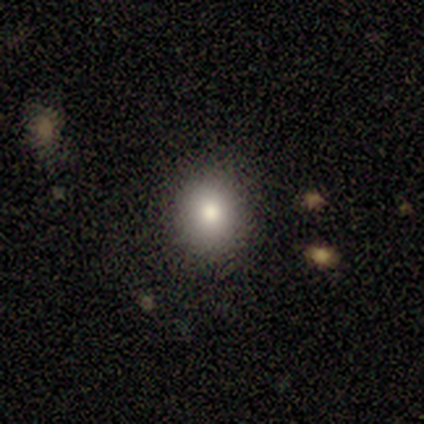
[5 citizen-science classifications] This appears to be a smooth galaxy with no disk features (60%) that is round (67%). Merging: none (60%).